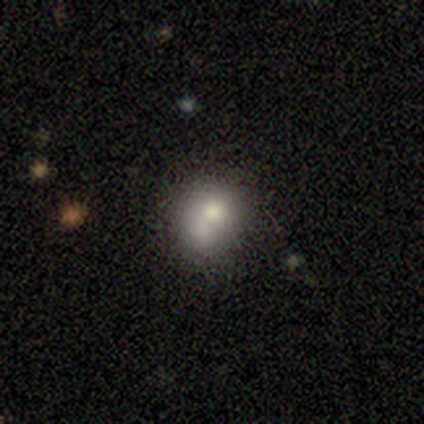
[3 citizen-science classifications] Overall: smooth (67%; star or artifact 33%). How rounded: round (50%, tied with in between). Merging: none (50%, tied with major disturbance).